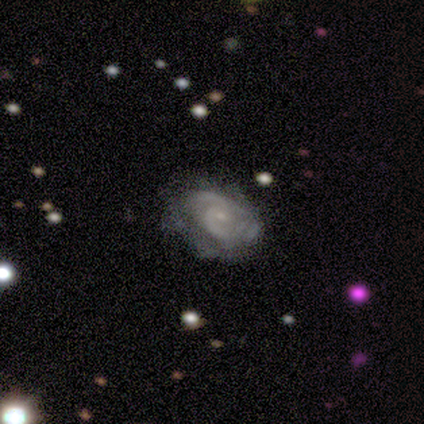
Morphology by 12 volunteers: Smooth or featured: featured or disk — 83% (smooth — 8%)
Edge-on disk: no — 100%
Bar: no — 60% (weak — 40%)
Spiral arms: yes — 90% (no — 10%)
Spiral winding: medium — 56% (tight — 33%)
Spiral arm count: 2 — 67% (can't tell — 22%)
Bulge size: small — 90% (moderate — 10%)
Merging: none — 82% (minor disturbance — 9%)